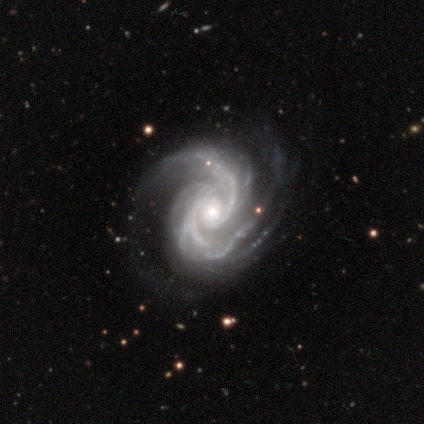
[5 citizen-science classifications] Smooth or featured? 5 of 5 (100%) said featured or disk. Edge-on disk? 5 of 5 (100%) said no. Bar? 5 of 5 (100%) said no. Spiral arms? 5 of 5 (100%) said yes. Spiral winding? 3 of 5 (60%) said tight. Spiral arm count? 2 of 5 (40%) said 2. Bulge size? 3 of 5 (60%) said moderate. Merging? 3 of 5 (60%) said none.